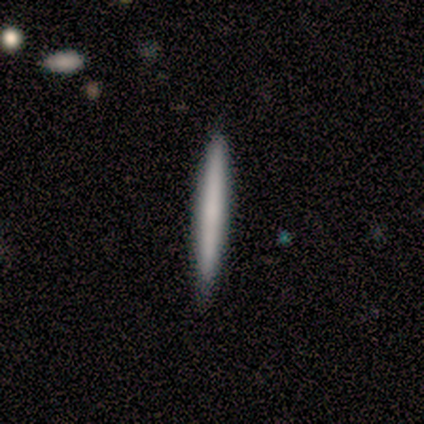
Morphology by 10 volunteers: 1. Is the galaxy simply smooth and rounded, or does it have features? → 80% smooth, 20% featured or disk, 0% star or artifact.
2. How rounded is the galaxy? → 100% cigar-shaped, 0% round, 0% in between.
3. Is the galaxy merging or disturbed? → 80% none, 10% minor disturbance, 10% major disturbance, 0% merger.